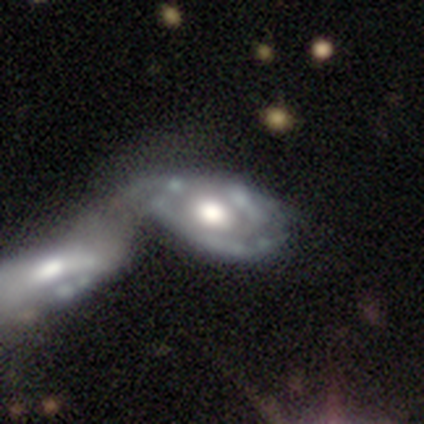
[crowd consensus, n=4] featured or disk 50% (tied), star or artifact 50% (tied), smooth 0%. Down the decision tree: edge-on disk — yes (50%, tied with no); edge-on bulge — rounded (100%); merging — merger (100%).